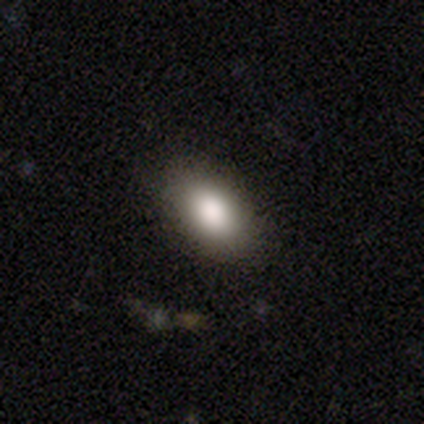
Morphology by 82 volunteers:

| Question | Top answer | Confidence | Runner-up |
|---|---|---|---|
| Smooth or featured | smooth | 82% | star or artifact (11%) |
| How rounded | in between | 90% | round (9%) |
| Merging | none | 78% | minor disturbance (15%) |